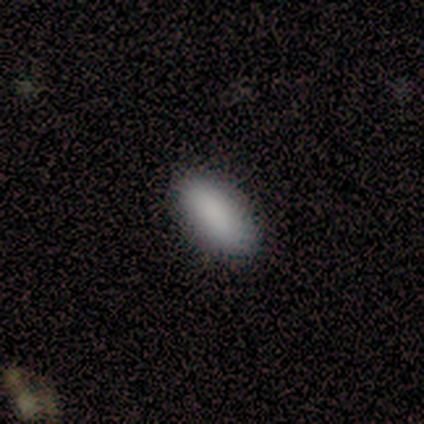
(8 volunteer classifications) Volunteers were most divided on "how rounded": in between: 88%, cigar-shaped: 12%, round: 0%. More confident: smooth or featured — smooth (100%); merging — none (100%).